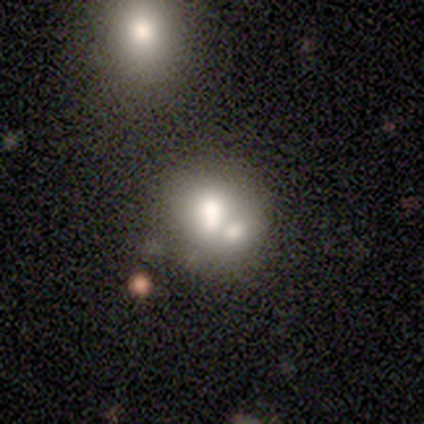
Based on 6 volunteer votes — Smooth or featured?
  - smooth: 83% *
  - featured or disk: 17%
  - star or artifact: 0%
How rounded?
  - round: 60% *
  - in between: 40%
  - cigar-shaped: 0%
Merging?
  - merger: 67% *
  - none: 17%
  - minor disturbance: 17%
  - major disturbance: 0%